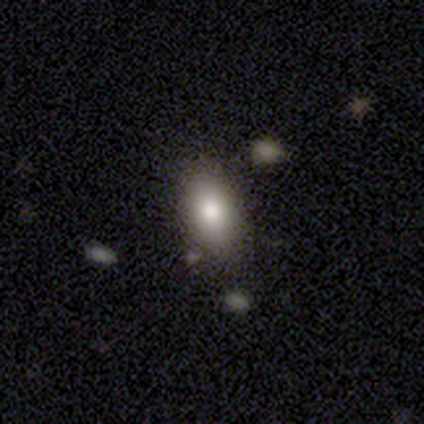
A smooth galaxy with no disk features (85%) that is in between round and cigar-shaped (94%).

Vote fractions:
- Smooth or featured? smooth: 85% / featured or disk: 12% / star or artifact: 2%
- How rounded? in between: 94% / round: 3% / cigar-shaped: 3%
- Merging? none: 69% / minor disturbance: 18% / merger: 10% / major disturbance: 3%